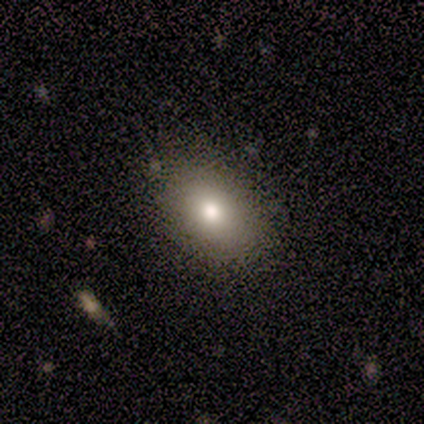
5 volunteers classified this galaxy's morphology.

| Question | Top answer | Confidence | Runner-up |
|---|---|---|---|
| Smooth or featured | smooth | 80% | featured or disk (20%) |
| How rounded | in between | 75% | round (25%) |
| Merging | none | 80% | minor disturbance (20%) |